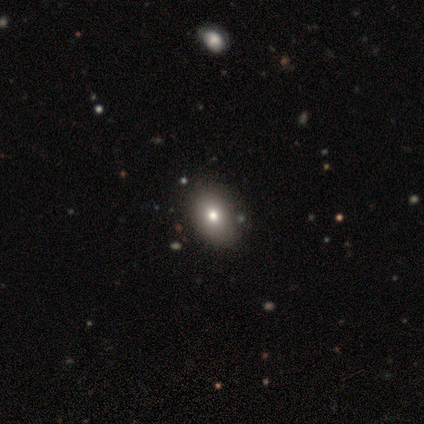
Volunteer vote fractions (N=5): Smooth or featured? smooth (60%)
How rounded? in between (100%)
Merging? none (75%)